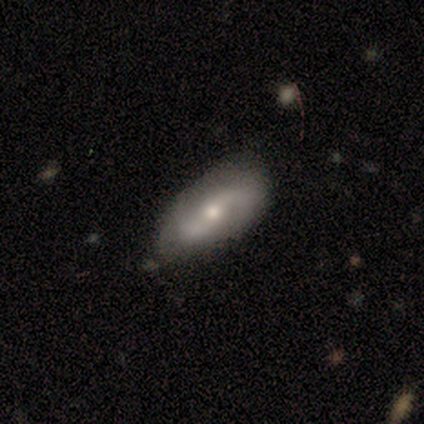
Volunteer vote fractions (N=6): Volunteers were most divided on "bar" (2-way tie): weak: 50%, no: 50%, strong: 0%; "spiral winding" (3-way tie): tight: 33%, medium: 33%, loose: 33%; "bulge size" (2-way tie): moderate: 50%, small: 50%, dominant: 0%, large: 0%, none: 0%. More confident: smooth or featured — featured or disk (100%); edge-on disk — no (100%); spiral arms — yes (100%); spiral arm count — 2 (83%); merging — none (83%).